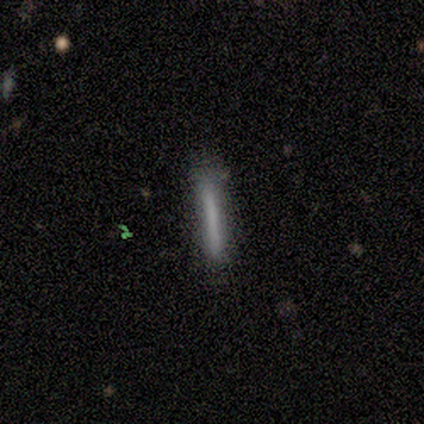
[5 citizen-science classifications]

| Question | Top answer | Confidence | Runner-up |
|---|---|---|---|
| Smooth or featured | smooth | 80% | star or artifact (20%) |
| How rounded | cigar-shaped | 100% | — |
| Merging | none | 100% | — |